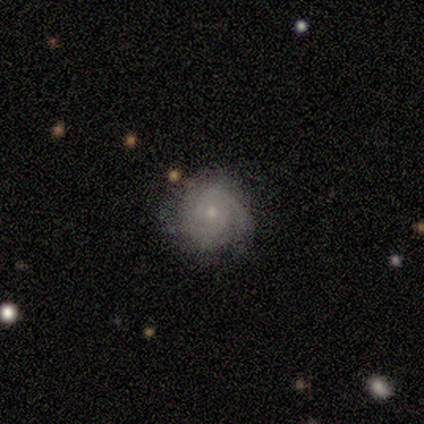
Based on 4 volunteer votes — This is possibly a featured or disk galaxy (50%, tied with star or artifact). It is clearly not viewed edge-on (100%). Bar: clearly no (100%). Spiral arm pattern: clearly yes (100%). Spiral arm count: clearly can't tell (100%). Spiral winding: possibly tight (50%, tied with medium). Central bulge: possibly dominant (50%, tied with small). Merging: clearly none (100%).